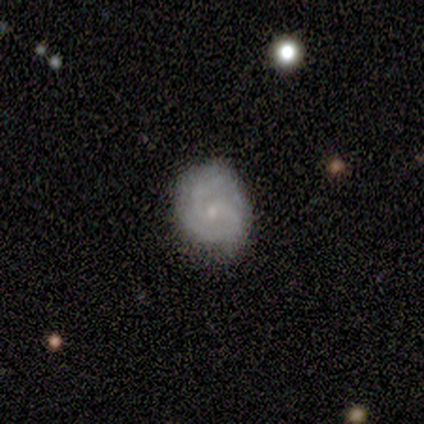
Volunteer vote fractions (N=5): Overall: featured or disk (100%). Edge-on disk: no (100%). Bar: no (60%; strong 20%). Spiral arms: yes (80%). Spiral arm count: 2 (50%, tied with 3). Spiral winding: tight (50%, tied with medium). Bulge size: small (80%). Merging: none (100%).